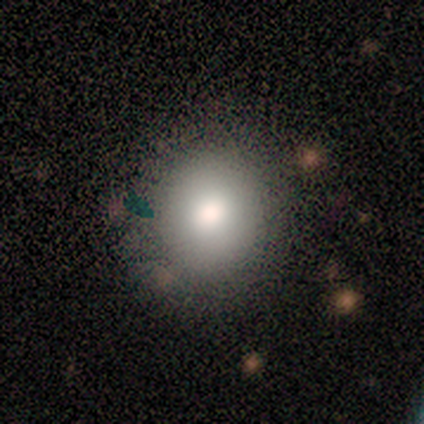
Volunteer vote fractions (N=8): A smooth galaxy with no disk features (88%) that is round (100%).

Vote fractions:
- Smooth or featured? smooth: 88% / star or artifact: 12% / featured or disk: 0%
- How rounded? round: 100% / in between: 0% / cigar-shaped: 0%
- Merging? none: 100% / minor disturbance: 0% / major disturbance: 0% / merger: 0%